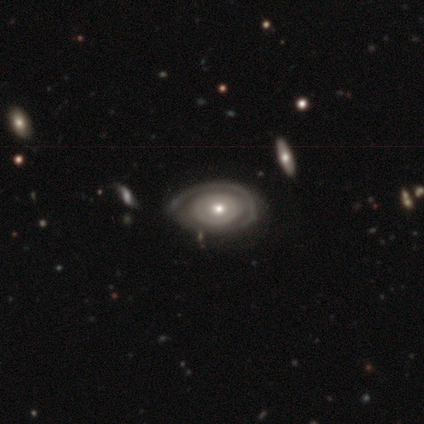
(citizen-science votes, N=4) Overall: featured or disk (100%). Edge-on disk: no (100%). Bar: no (100%). Spiral arms: yes (50%, tied with no). Spiral arm count: 2 (50%, tied with can't tell). Spiral winding: tight (100%). Bulge size: moderate (75%). Merging: none (50%, tied with minor disturbance).